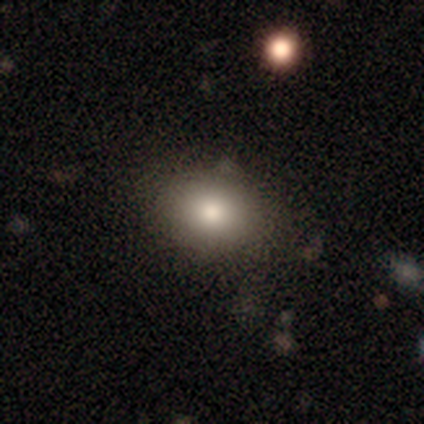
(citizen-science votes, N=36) smooth_or_featured: smooth (p=0.78) [alt: featured or disk p=0.11]
how_rounded: in between (p=0.57) [alt: round p=0.43]
merging: none (p=0.75) [alt: minor disturbance p=0.19]